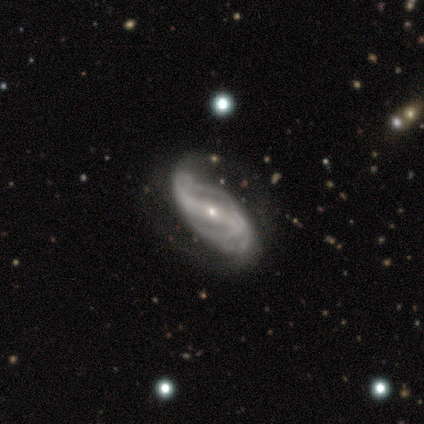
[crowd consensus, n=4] Overall: featured or disk (100%). Edge-on disk: no (100%). Bar: strong (100%). Spiral arms: yes (100%). Spiral arm count: 2 (100%). Spiral winding: loose (100%). Bulge size: small (100%). Merging: minor disturbance (75%).